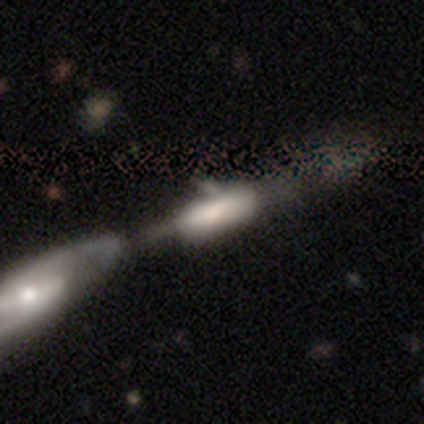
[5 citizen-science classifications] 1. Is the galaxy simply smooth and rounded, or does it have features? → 60% featured or disk, 40% smooth, 0% star or artifact.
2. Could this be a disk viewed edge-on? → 67% yes, 33% no.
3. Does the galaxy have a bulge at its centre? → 100% boxy, 0% none, 0% rounded.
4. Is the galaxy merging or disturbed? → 60% merger, 20% minor disturbance, 20% major disturbance, 0% none.